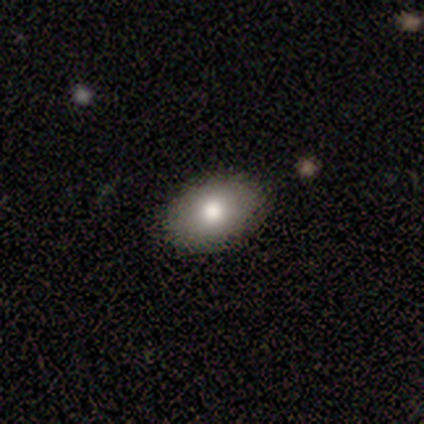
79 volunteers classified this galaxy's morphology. A smooth galaxy with no disk features (80%) that is in between round and cigar-shaped (89%).

Vote fractions:
- Smooth or featured? smooth: 80% / featured or disk: 10% / star or artifact: 10%
- How rounded? in between: 89% / round: 10% / cigar-shaped: 2%
- Merging? none: 65% / merger: 4% / minor disturbance: 1% / major disturbance: 0%